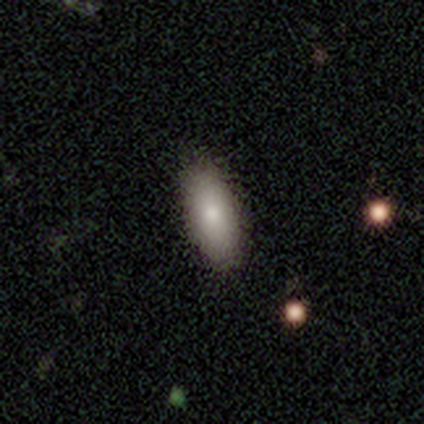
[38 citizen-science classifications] smooth-or-featured: smooth: 95% | featured or disk: 3% | star or artifact: 3%
  how-rounded: in between: 78% | cigar-shaped: 17% | round: 6%
  merging: none: 97% | minor disturbance: 3% | major disturbance: 0% | merger: 0%